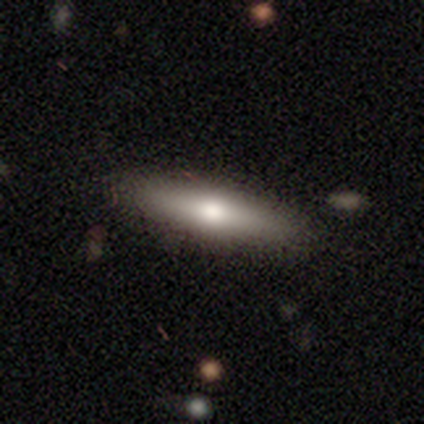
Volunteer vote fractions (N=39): Smooth or featured? 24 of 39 (62%) said smooth. How rounded? 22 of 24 (92%) said cigar-shaped. Merging? 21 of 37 (57%) said none.